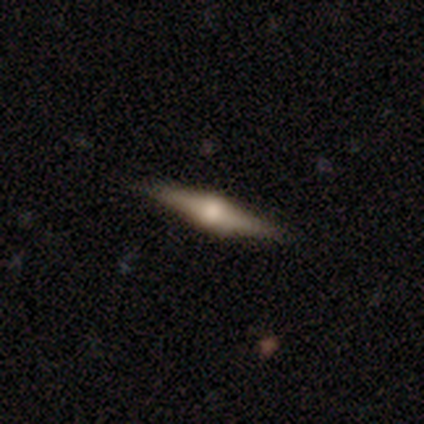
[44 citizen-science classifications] smooth-or-featured: featured or disk: 84% | star or artifact: 9% | smooth: 7%
  disk-edge-on: yes: 100% | no: 0%
    edge-on-bulge: rounded: 89% | boxy: 11% | none: 0%
  merging: none: 92% | minor disturbance: 8% | major disturbance: 0% | merger: 0%